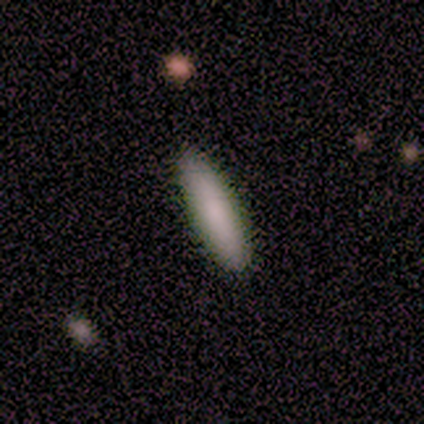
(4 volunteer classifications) This appears to be a smooth galaxy with no disk features (100%) that is in between round and cigar-shaped (75%). Merging: none (100%).